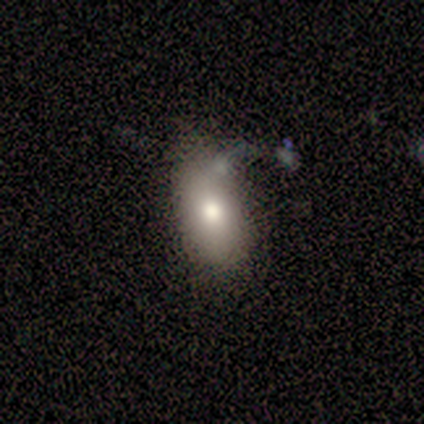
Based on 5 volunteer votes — Smooth or featured? 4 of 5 (80%) said smooth. How rounded? 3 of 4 (75%) said in between. Merging? 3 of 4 (75%) said minor disturbance.